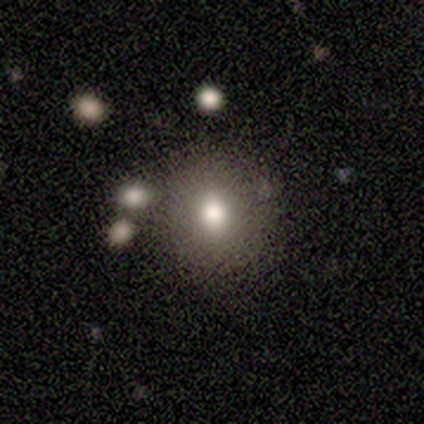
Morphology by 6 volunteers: smooth-or-featured: smooth: 67% | featured or disk: 33% | star or artifact: 0%
  how-rounded: round: 100% | in between: 0% | cigar-shaped: 0%
  merging: none: 100% | minor disturbance: 0% | major disturbance: 0% | merger: 0%